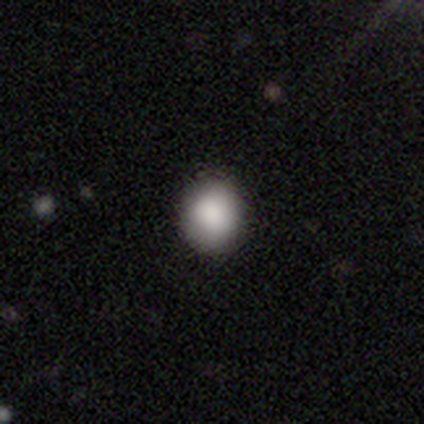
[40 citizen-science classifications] smooth 78%, star or artifact 18%, featured or disk 5%. Down the decision tree: how rounded — round (84%); merging — none (88%).